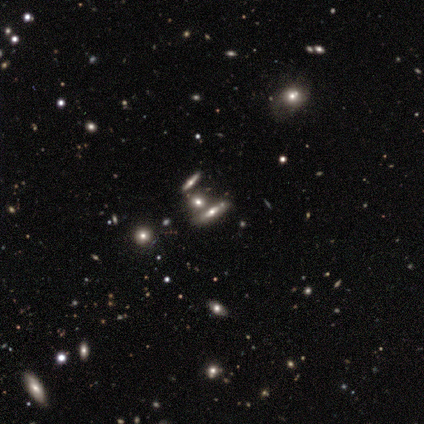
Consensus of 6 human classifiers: featured or disk 67%, smooth 17%, star or artifact 17%. Down the decision tree: edge-on disk — yes (50%, tied with no); edge-on bulge — rounded (100%); merging — none (40%, tied with minor disturbance).